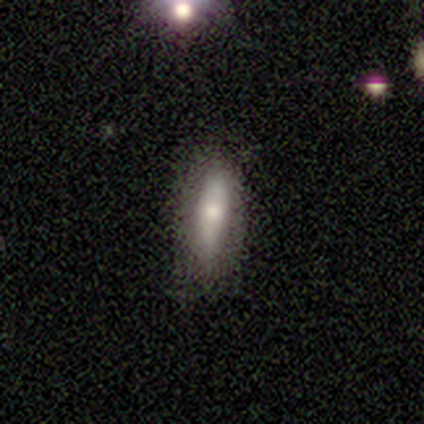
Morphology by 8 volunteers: Smooth or featured? smooth (88%)
How rounded? in between (71%)
Merging? none (88%)